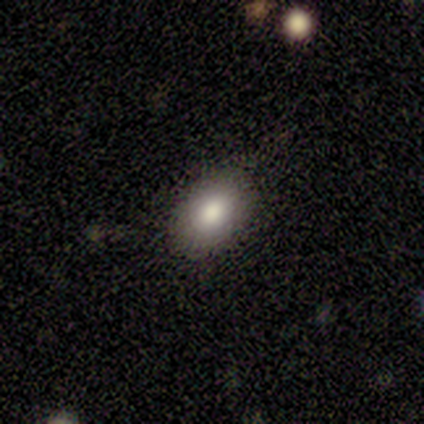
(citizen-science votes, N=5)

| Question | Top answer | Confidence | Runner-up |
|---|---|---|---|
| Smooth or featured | smooth | 80% | featured or disk (20%) |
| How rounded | in between | 100% | — |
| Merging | none | 100% | — |